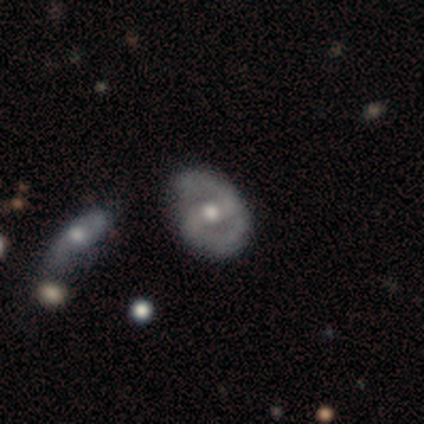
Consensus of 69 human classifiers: Smooth or featured: featured or disk — 81% (smooth — 13%)
Edge-on disk: no — 96% (yes — 4%)
Bar: strong — 57% (weak — 26%)
Spiral arms: yes — 80% (no — 20%)
Spiral winding: medium — 58% (tight — 37%)
Spiral arm count: 2 — 93% (can't tell — 5%)
Bulge size: moderate — 85% (large — 7%)
Merging: none — 66% (minor disturbance — 28%)